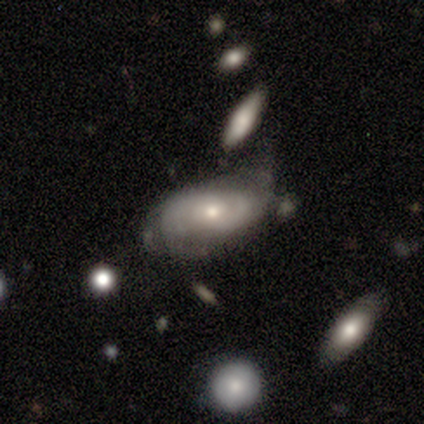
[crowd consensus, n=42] Overall: featured or disk (81%). Edge-on disk: no (97%). Bar: no (79%). Spiral arms: yes (91%). Spiral arm count: 2 (63%). Spiral winding: tight (57%; medium 40%). Bulge size: small (52%; moderate 48%). Merging: minor disturbance (41%; none 39%).